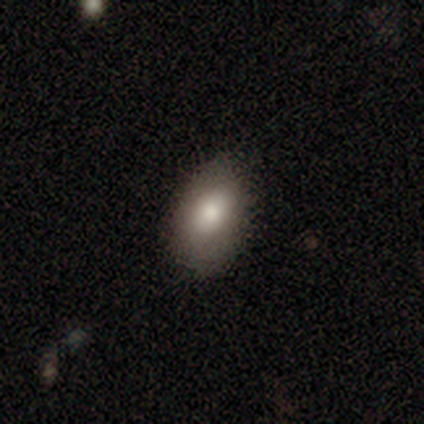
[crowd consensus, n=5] Volunteers were most divided on "merging": none: 80%, minor disturbance: 20%, major disturbance: 0%, merger: 0%. More confident: smooth or featured — smooth (100%); how rounded — in between (100%).